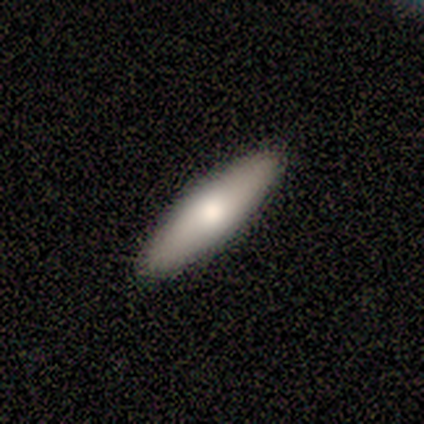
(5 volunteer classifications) Volunteers were most divided on "smooth or featured": smooth: 60%, featured or disk: 40%, star or artifact: 0%. More confident: merging — none (100%); how rounded — cigar-shaped (67%).